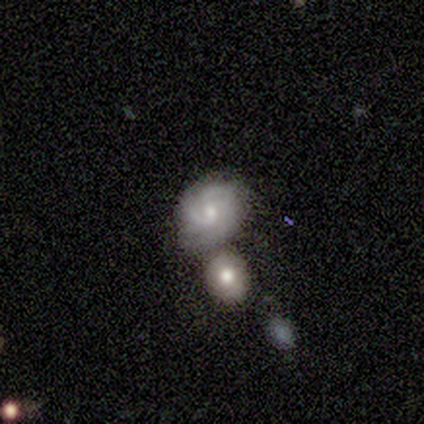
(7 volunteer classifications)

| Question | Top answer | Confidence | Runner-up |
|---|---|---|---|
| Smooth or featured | featured or disk | 71% | smooth (29%) |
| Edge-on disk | no | 100% | — |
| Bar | no | 80% | weak (20%) |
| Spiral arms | yes | 80% | no (20%) |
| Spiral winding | medium | 50% | tight (25%) |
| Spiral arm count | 2 | 50% | 3 (25%) |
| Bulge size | small | 60% | moderate (40%) |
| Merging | major disturbance | 43% | merger (29%) |